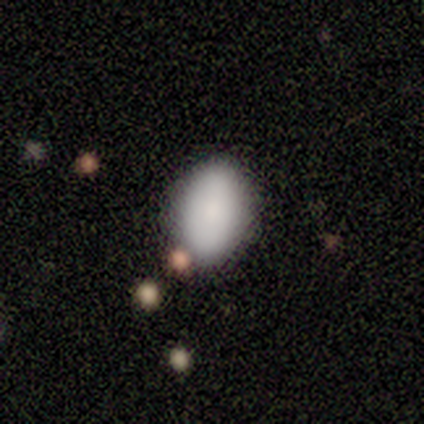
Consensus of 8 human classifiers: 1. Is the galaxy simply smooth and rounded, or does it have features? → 75% smooth, 12% featured or disk, 12% star or artifact.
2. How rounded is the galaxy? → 100% in between, 0% round, 0% cigar-shaped.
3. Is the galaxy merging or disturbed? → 100% none, 0% minor disturbance, 0% major disturbance, 0% merger.